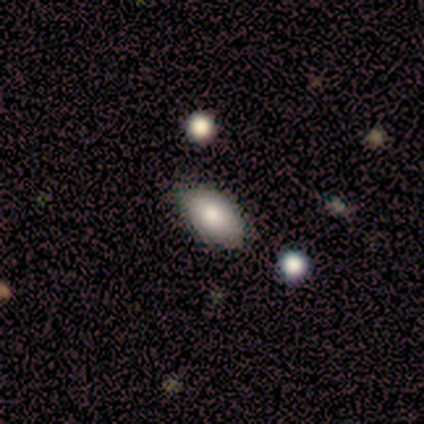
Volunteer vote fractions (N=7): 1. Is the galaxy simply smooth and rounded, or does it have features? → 71% smooth, 29% star or artifact, 0% featured or disk.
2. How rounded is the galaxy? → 100% in between, 0% round, 0% cigar-shaped.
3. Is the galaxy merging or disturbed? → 80% none, 20% minor disturbance, 0% major disturbance, 0% merger.